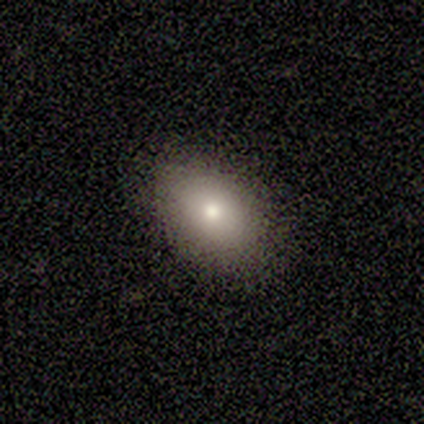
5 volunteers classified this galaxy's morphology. smooth_or_featured: smooth (p=1.00)
how_rounded: in between (p=1.00)
merging: none (p=1.00)